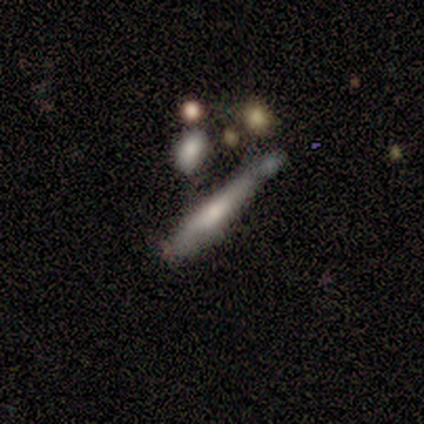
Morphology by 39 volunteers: Smooth or featured: featured or disk — 51% (smooth — 38%)
Edge-on disk: yes — 85% (no — 15%)
Edge-on bulge: none — 47% (rounded — 29%)
Merging: none — 37% (merger — 26%)